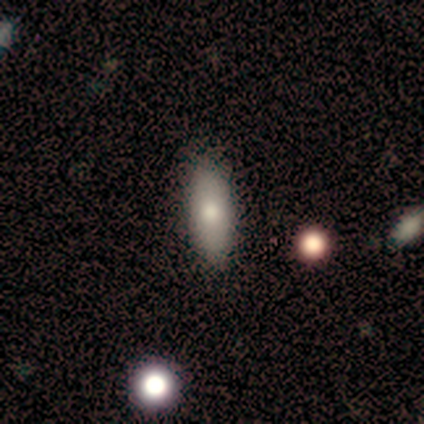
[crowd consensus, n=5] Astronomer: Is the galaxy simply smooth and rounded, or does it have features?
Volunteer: smooth — 60% (runner-up: featured or disk, 40%).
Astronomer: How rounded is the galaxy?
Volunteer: in between — 100%.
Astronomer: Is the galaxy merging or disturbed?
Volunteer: none — 100%.